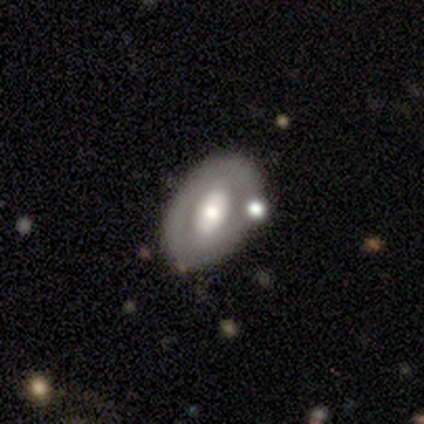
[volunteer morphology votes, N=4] Q: Smooth or featured?
A: featured or disk (100%)
Q: Edge-on disk?
A: no (100%)
Q: Bar?
A: no (75%); runner-up: strong (25%)
Q: Spiral arms?
A: no (100%)
Q: Bulge size?
A: moderate (75%); runner-up: large (25%)
Q: Merging?
A: none (100%)